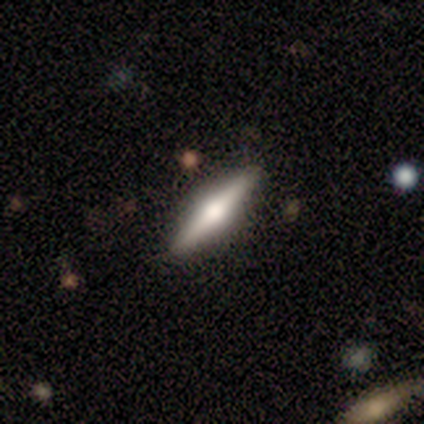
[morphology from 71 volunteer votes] Smooth or featured? featured or disk (62%)
Edge-on disk? yes (98%)
Edge-on bulge? rounded (95%)
Merging? none (49%)